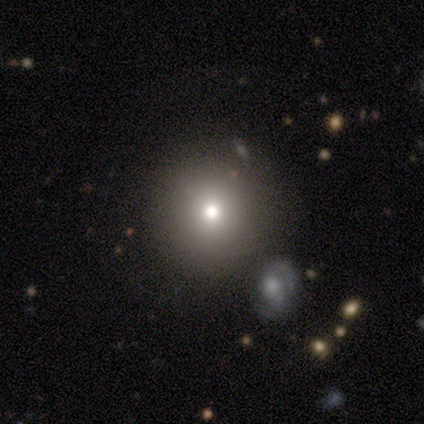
Smooth or featured: star or artifact — 80% (smooth — 20%)